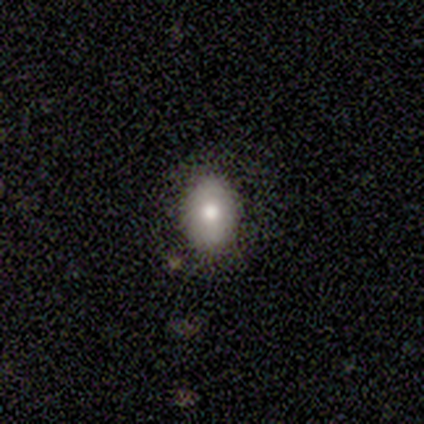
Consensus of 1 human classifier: Smooth or featured?
  - smooth: 100% *
  - featured or disk: 0%
  - star or artifact: 0%
How rounded?
  - in between: 100% *
  - round: 0%
  - cigar-shaped: 0%
Merging?
  - none: 100% *
  - minor disturbance: 0%
  - major disturbance: 0%
  - merger: 0%